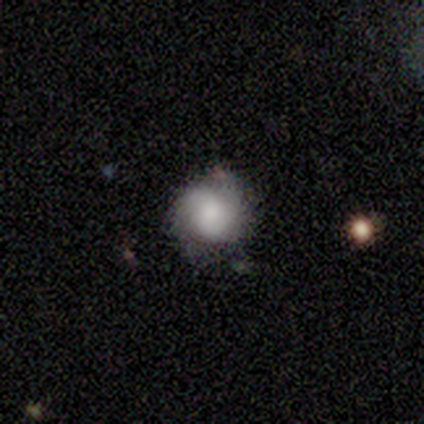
Smooth or featured? featured or disk (50%)
Edge-on disk? no (100%)
Bar? no (100%)
Spiral arms? yes (67%)
Spiral winding? tight (50%, tied with medium)
Spiral arm count? 2 (50%, tied with can't tell)
Bulge size? large (33%, tied with moderate and none)
Merging? none (60%)